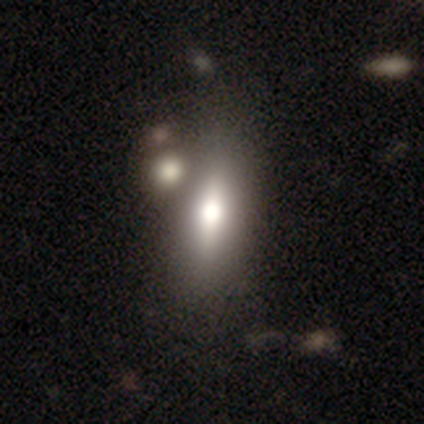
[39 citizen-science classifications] Smooth or featured? smooth (64%)
How rounded? in between (72%)
Merging? none (45%)